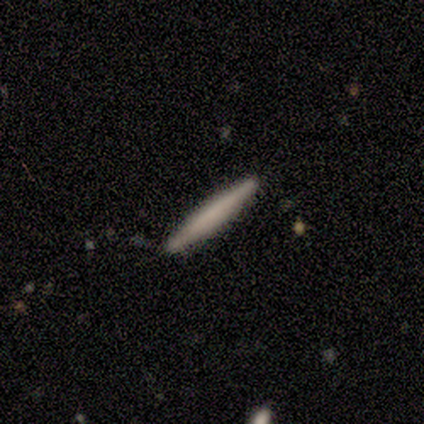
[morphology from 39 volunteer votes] This is likely a smooth galaxy (67%). How rounded: clearly cigar-shaped (92%). Merging: clearly none (100%).